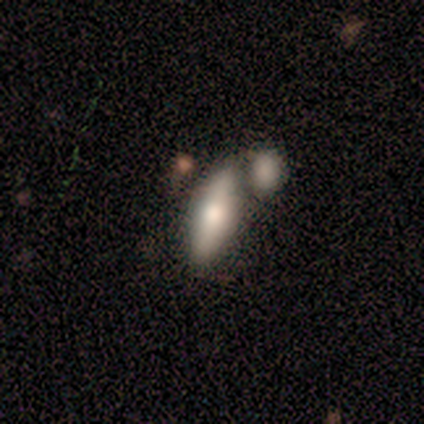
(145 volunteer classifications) Q: Smooth or featured?
A: smooth (68%); runner-up: featured or disk (29%)
Q: How rounded?
A: in between (65%); runner-up: cigar-shaped (35%)
Q: Merging?
A: merger (46%); runner-up: none (39%)